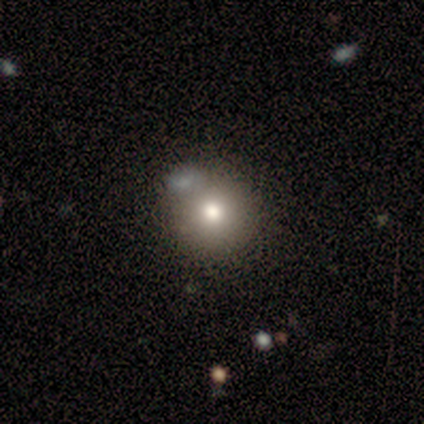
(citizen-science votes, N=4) Smooth or featured? smooth (75%)
How rounded? round (100%)
Merging? none (67%)